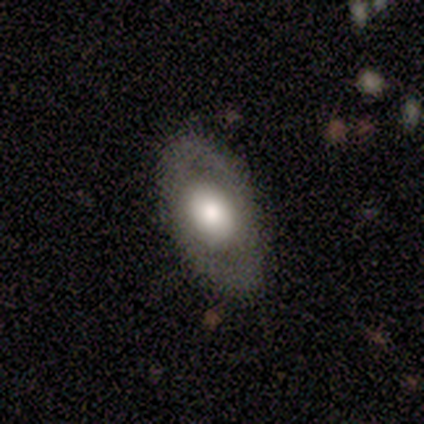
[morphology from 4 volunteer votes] Smooth or featured: star or artifact — 50% (smooth — 25%)